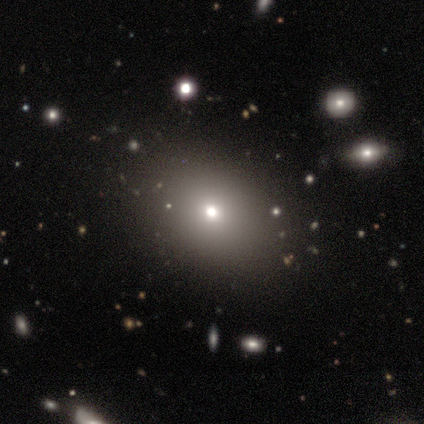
This is clearly a smooth galaxy (86%). How rounded: possibly in between (56%). Merging: likely none (76%).